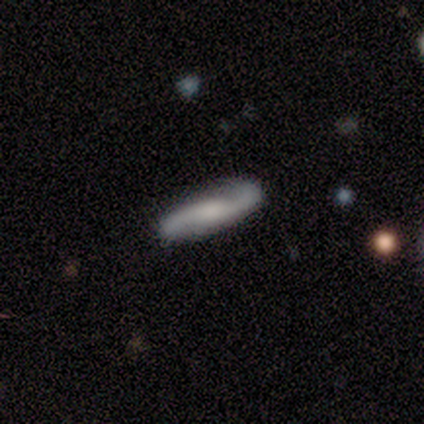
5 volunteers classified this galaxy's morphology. Overall: featured or disk (60%; smooth 40%). Edge-on disk: no (100%). Bar: weak (67%; no 33%). Spiral arms: yes (100%). Spiral arm count: 2 (100%). Spiral winding: tight (67%; loose 33%). Bulge size: none (67%; large 33%). Merging: none (100%).